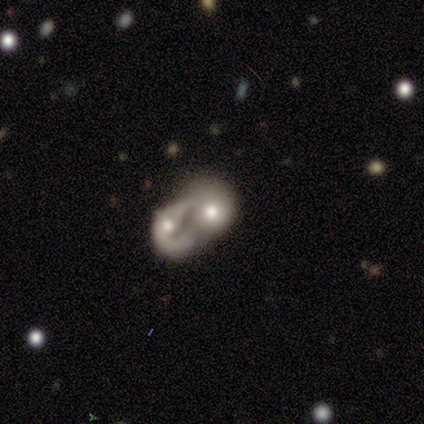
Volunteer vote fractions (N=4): This is possibly a smooth galaxy (50%, tied with featured or disk). How rounded: possibly round (50%, tied with in between). Merging: clearly merger (100%).